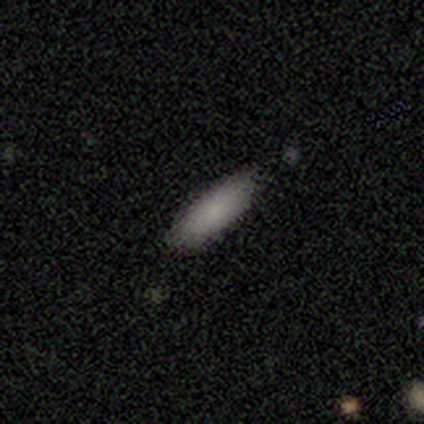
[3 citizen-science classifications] smooth-or-featured: featured or disk: 67% | smooth: 33% | star or artifact: 0%
  disk-edge-on: yes: 50% (tied) | no: 50% (tied)
    edge-on-bulge: none: 100% | boxy: 0% | rounded: 0%
  merging: none: 67% | minor disturbance: 33% | major disturbance: 0% | merger: 0%